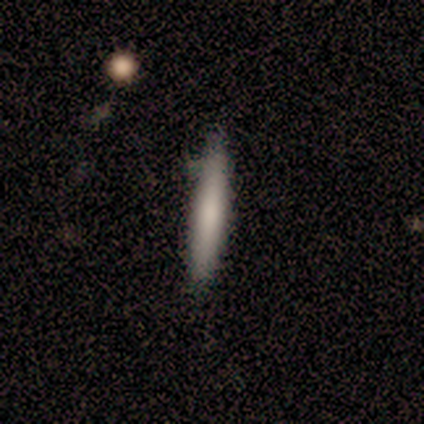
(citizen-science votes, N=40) Q: Smooth or featured?
A: smooth (75%); runner-up: featured or disk (22%)
Q: How rounded?
A: cigar-shaped (97%); runner-up: in between (3%)
Q: Merging?
A: none (85%); runner-up: minor disturbance (15%)